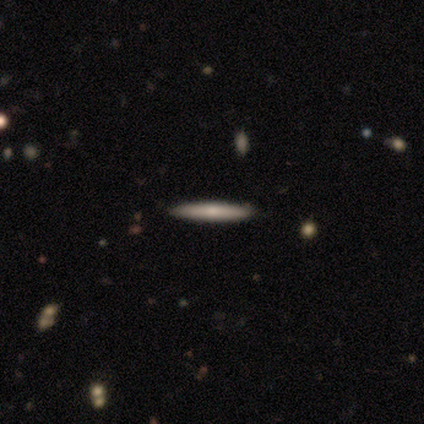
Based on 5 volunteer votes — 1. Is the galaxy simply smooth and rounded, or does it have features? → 80% smooth, 20% featured or disk, 0% star or artifact.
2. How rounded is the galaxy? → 100% cigar-shaped, 0% round, 0% in between.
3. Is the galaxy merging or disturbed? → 100% none, 0% minor disturbance, 0% major disturbance, 0% merger.